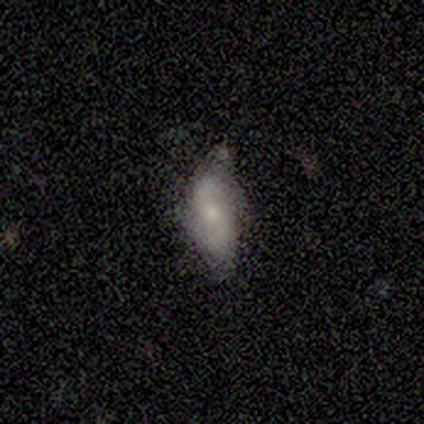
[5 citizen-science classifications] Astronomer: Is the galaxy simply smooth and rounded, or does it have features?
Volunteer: featured or disk — 100%.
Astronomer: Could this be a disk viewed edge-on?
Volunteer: no — 100%.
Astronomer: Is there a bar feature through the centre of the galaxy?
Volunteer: weak — 60% (runner-up: no, 40%).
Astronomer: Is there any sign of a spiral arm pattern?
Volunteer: yes — 100%.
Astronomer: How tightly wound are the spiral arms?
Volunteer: tight — 40%, tied with loose at 40%.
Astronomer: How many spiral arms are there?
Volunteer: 2 — 60%.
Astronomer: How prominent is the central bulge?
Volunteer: moderate — 80%.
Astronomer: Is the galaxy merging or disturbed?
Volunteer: none — 80%.